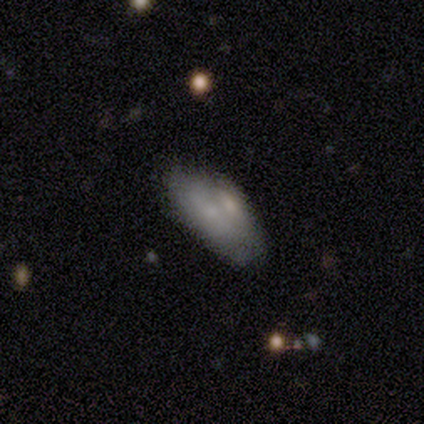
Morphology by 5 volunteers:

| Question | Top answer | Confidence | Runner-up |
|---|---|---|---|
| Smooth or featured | smooth | 80% | featured or disk (20%) |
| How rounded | in between | 75% | cigar-shaped (25%) |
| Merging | none | 40% | tied: merger (40%) |